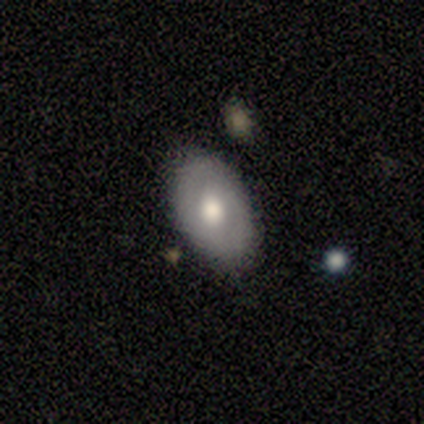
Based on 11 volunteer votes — This is possibly a smooth galaxy (55%). How rounded: likely in between (67%). Merging: likely none (73%).